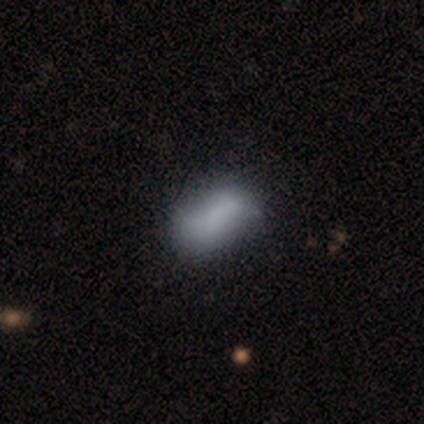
Smooth or featured? smooth (60%)
How rounded? in between (100%)
Merging? none (60%)